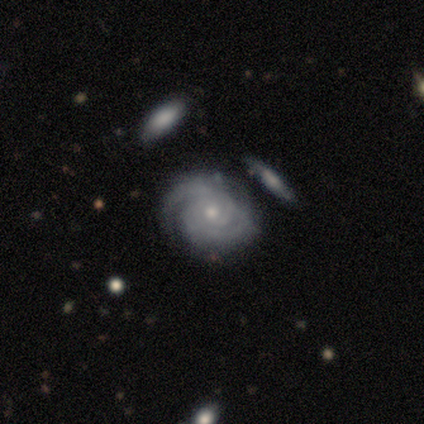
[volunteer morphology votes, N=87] Q: Smooth or featured?
A: featured or disk (94%); runner-up: star or artifact (3%)
Q: Edge-on disk?
A: no (100%)
Q: Bar?
A: no (76%); runner-up: weak (16%)
Q: Spiral arms?
A: yes (100%)
Q: Spiral winding?
A: tight (80%); runner-up: medium (18%)
Q: Spiral arm count?
A: 2 (35%); runner-up: can't tell (32%)
Q: Bulge size?
A: small (67%); runner-up: moderate (27%)
Q: Merging?
A: none (68%); runner-up: minor disturbance (14%)